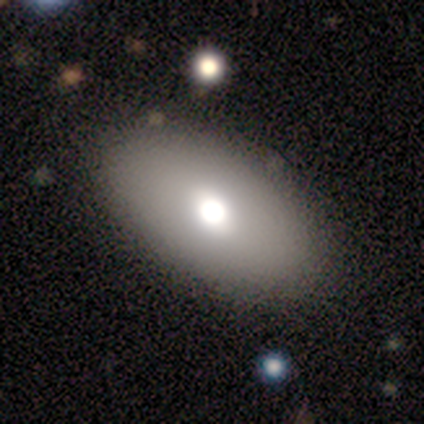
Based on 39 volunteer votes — Volunteers were most divided on "smooth or featured": smooth: 85%, featured or disk: 13%, star or artifact: 3%. More confident: how rounded — in between (97%); merging — none (79%).